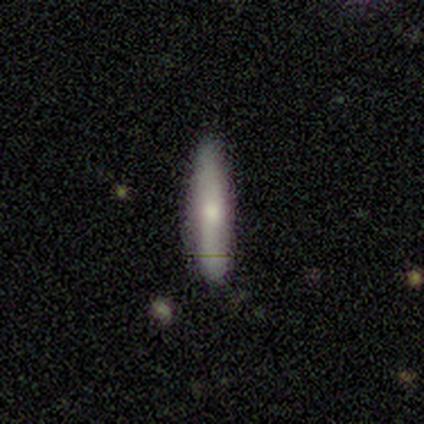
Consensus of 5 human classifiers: Volunteers were most divided on "smooth or featured": smooth: 80%, featured or disk: 20%, star or artifact: 0%. More confident: how rounded — cigar-shaped (100%); merging — none (100%).